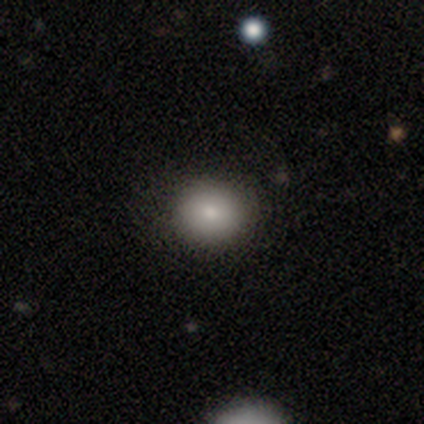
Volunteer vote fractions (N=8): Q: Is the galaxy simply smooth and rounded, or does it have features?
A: smooth — 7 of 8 (88%).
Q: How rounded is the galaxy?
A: round — 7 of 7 (100%).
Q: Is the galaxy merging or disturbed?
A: none — 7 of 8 (88%).